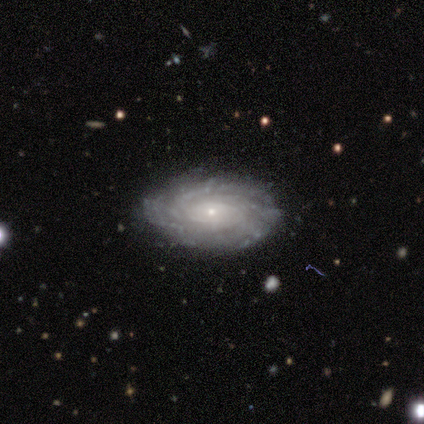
This is clearly a featured or disk galaxy (86%). It is clearly not viewed edge-on (100%). Bar: likely no (75%). Spiral arm pattern: clearly yes (100%). Spiral arm count: possibly can't tell (50%). Spiral winding: likely tight (67%). Central bulge: clearly small (83%). Merging: clearly none (100%).